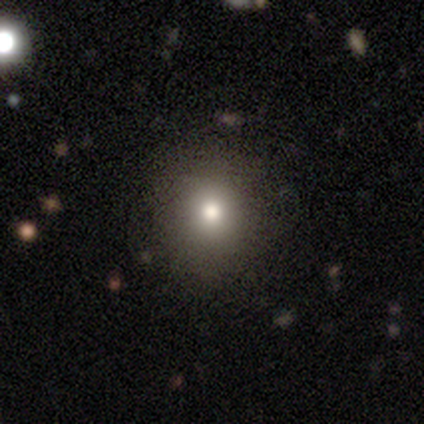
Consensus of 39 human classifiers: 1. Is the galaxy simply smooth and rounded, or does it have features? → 69% smooth, 18% star or artifact, 13% featured or disk.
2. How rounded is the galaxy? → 89% round, 7% in between, 4% cigar-shaped.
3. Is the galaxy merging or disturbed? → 78% none, 9% minor disturbance, 9% major disturbance, 3% merger.